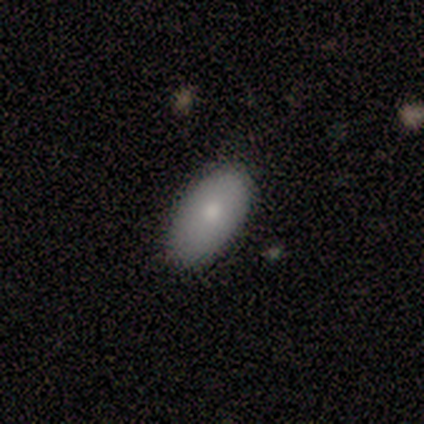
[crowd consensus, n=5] Overall: smooth (100%). How rounded: in between (100%). Merging: none (100%).